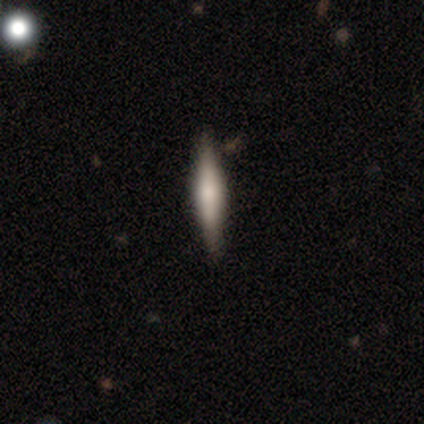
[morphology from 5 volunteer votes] smooth 60%, featured or disk 40%, star or artifact 0%. Down the decision tree: how rounded — cigar-shaped (100%); merging — none (100%).